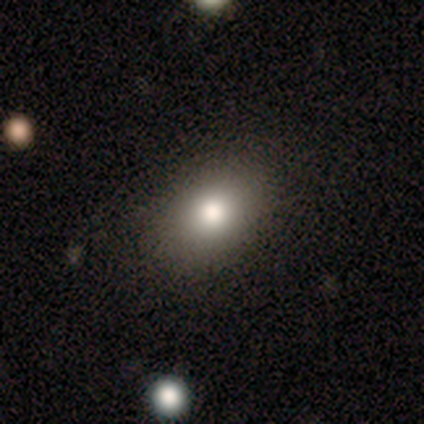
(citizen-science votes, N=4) Morphology: type=smooth (75%); roundness=in between (67%); merging=none (100%).